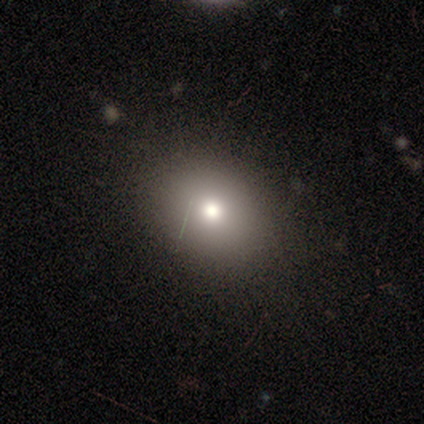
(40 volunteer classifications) Morphology: type=smooth (72%); roundness=in between (69%); merging=none (94%).